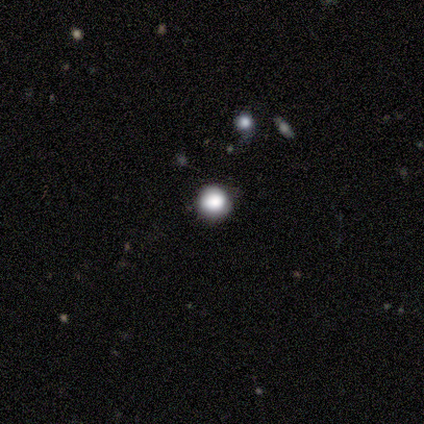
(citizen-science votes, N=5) Overall: smooth (100%). How rounded: round (80%). Merging: none (100%).